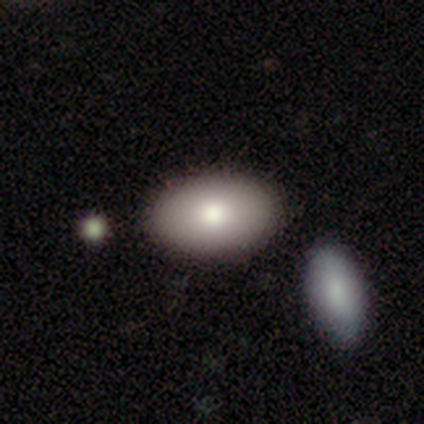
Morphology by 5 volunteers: Smooth or featured? 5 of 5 (100%) said smooth. How rounded? 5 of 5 (100%) said in between. Merging? 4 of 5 (80%) said none.